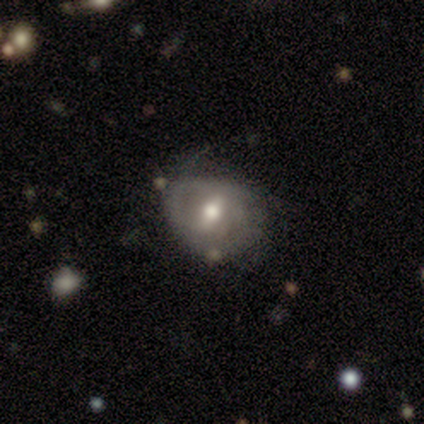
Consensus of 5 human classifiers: Overall: featured or disk (60%; smooth 40%). Edge-on disk: no (100%). Bar: strong (33%, tied with weak and no). Spiral arms: no (67%; yes 33%). Bulge size: moderate (67%; small 33%). Merging: minor disturbance (80%).